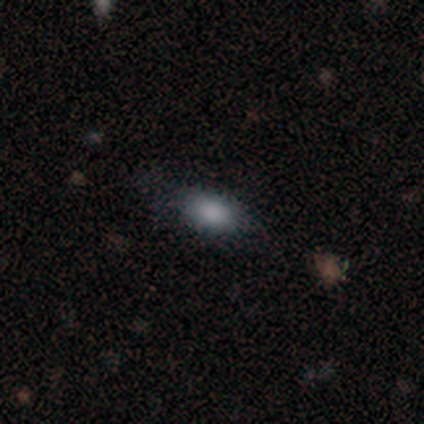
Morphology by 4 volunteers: Smooth or featured: featured or disk — 50% (smooth — 25%)
Edge-on disk: yes — 50% (tied with no — 50%)
Edge-on bulge: rounded — 100%
Merging: none — 67% (minor disturbance — 33%)